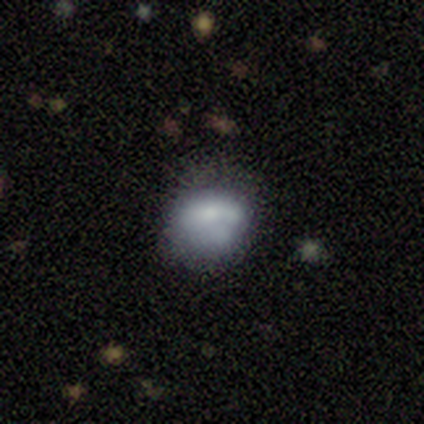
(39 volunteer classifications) smooth 56%, featured or disk 33%, star or artifact 10%. Down the decision tree: how rounded — round (55%); merging — none (49%).